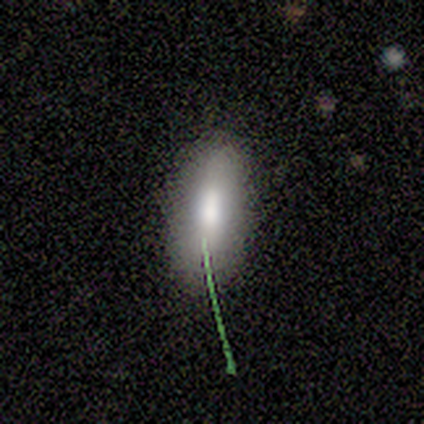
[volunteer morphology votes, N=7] This appears to be a smooth galaxy with no disk features (71%) that is in between round and cigar-shaped (100%). Merging: none (100%).